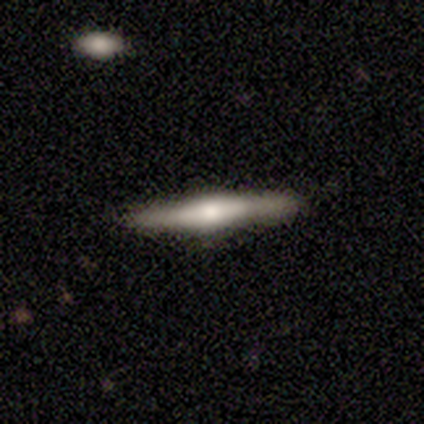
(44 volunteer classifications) Overall: featured or disk (70%). Edge-on disk: yes (100%). Edge-on bulge: rounded (71%). Merging: none (86%).